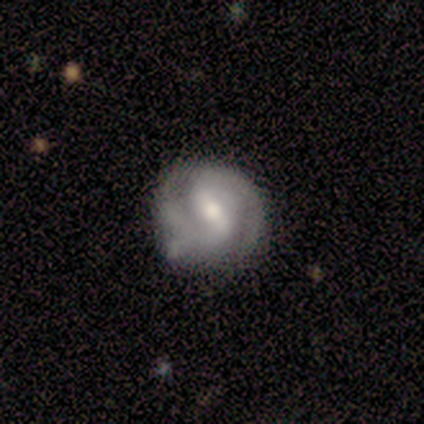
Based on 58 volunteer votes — Q: Smooth or featured?
A: featured or disk (74%); runner-up: smooth (26%)
Q: Edge-on disk?
A: no (98%); runner-up: yes (2%)
Q: Bar?
A: strong (55%); runner-up: weak (36%)
Q: Spiral arms?
A: yes (93%); runner-up: no (7%)
Q: Spiral winding?
A: tight (59%); runner-up: medium (31%)
Q: Spiral arm count?
A: 2 (95%); runner-up: can't tell (5%)
Q: Bulge size?
A: moderate (62%); runner-up: small (29%)
Q: Merging?
A: none (60%); runner-up: minor disturbance (28%)